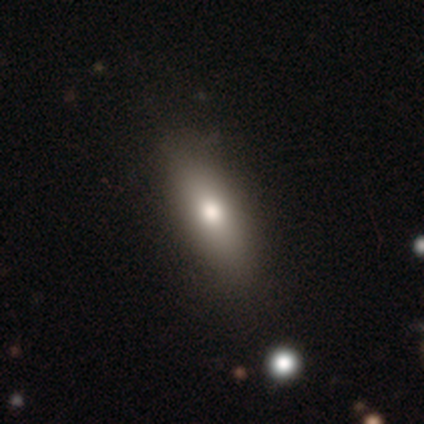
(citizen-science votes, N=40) Overall: smooth (60%; featured or disk 25%). How rounded: in between (50%; cigar-shaped 46%). Merging: none (82%).